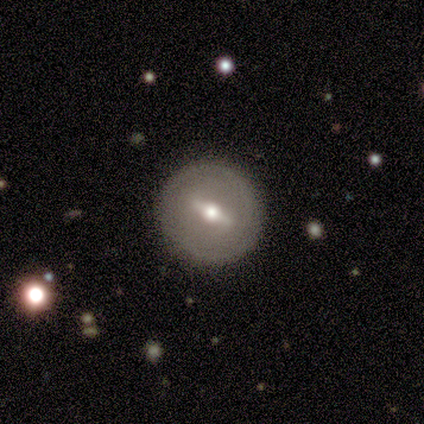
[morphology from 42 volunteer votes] Volunteers were most divided on "smooth or featured": featured or disk: 57%, smooth: 36%, star or artifact: 7%. More confident: spiral arms — no (88%); merging — none (87%); bar — strong (81%); bulge size — moderate (81%); edge-on disk — no (67%).